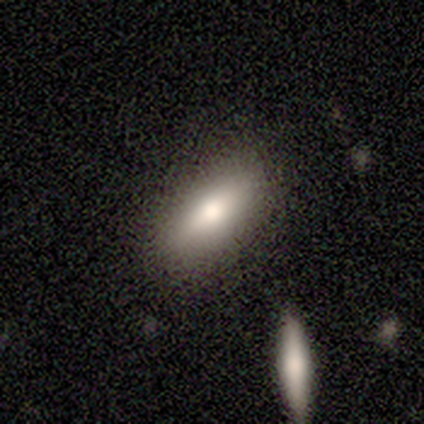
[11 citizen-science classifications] Morphology: type=smooth (91%); roundness=in between (60%); merging=none (55%).